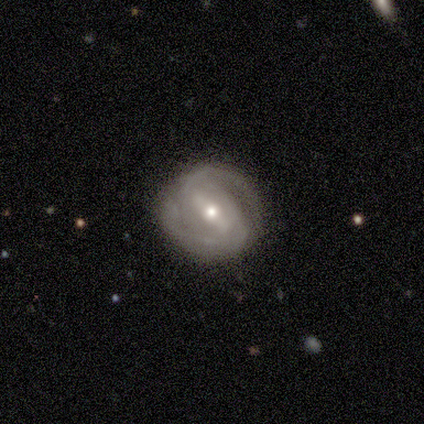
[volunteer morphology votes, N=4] Smooth or featured: featured or disk — 75% (smooth — 25%)
Edge-on disk: no — 100%
Bar: weak — 100%
Spiral arms: yes — 67% (no — 33%)
Spiral winding: medium — 50% (tied with loose — 50%)
Spiral arm count: 2 — 100%
Bulge size: moderate — 67% (small — 33%)
Merging: none — 100%